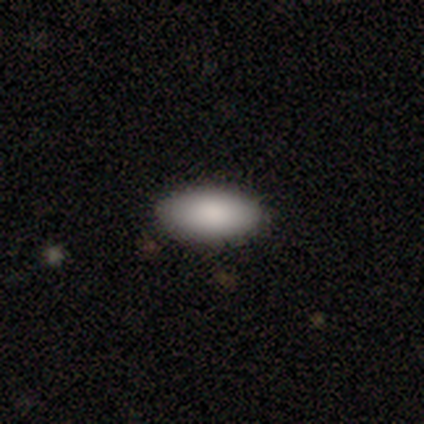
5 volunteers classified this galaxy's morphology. smooth_or_featured: smooth (p=1.00)
how_rounded: in between (p=0.80) [alt: cigar-shaped p=0.20]
merging: none (p=1.00)